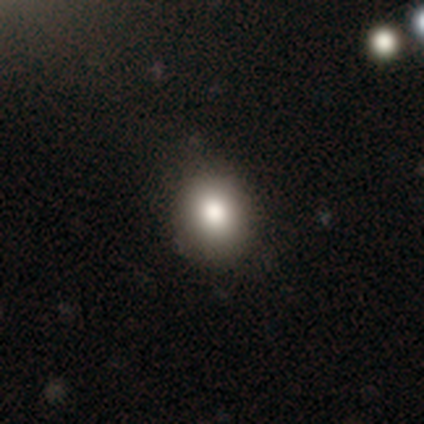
A smooth galaxy with no disk features (86%) that is round (62%).

Vote fractions:
- Smooth or featured? smooth: 86% / star or artifact: 9% / featured or disk: 5%
- How rounded? round: 62% / in between: 38% / cigar-shaped: 0%
- Merging? none: 44% / minor disturbance: 6% / merger: 3% / major disturbance: 0%